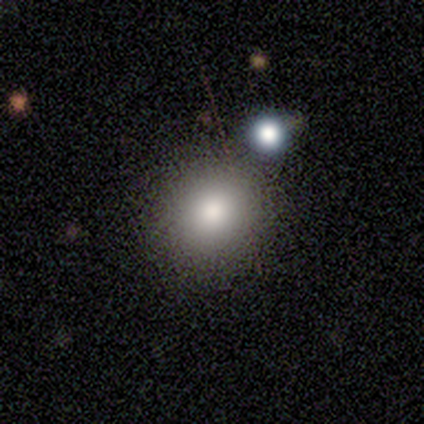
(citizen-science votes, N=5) Smooth or featured? smooth (100%)
How rounded? round (100%)
Merging? none (60%)